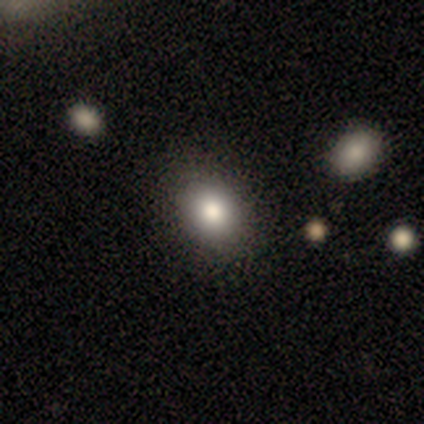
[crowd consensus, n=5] smooth-or-featured: smooth: 80% | featured or disk: 20% | star or artifact: 0%
  how-rounded: in between: 100% | round: 0% | cigar-shaped: 0%
  merging: none: 100% | minor disturbance: 0% | major disturbance: 0% | merger: 0%